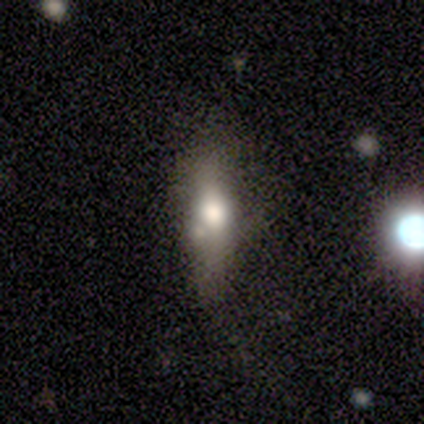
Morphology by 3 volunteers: A smooth galaxy with no disk features (100%) that is cigar-shaped (67%).

Vote fractions:
- Smooth or featured? smooth: 100% / featured or disk: 0% / star or artifact: 0%
- How rounded? cigar-shaped: 67% / in between: 33% / round: 0%
- Merging? none: 33% (tied) / minor disturbance: 33% (tied) / major disturbance: 33% (tied) / merger: 0%